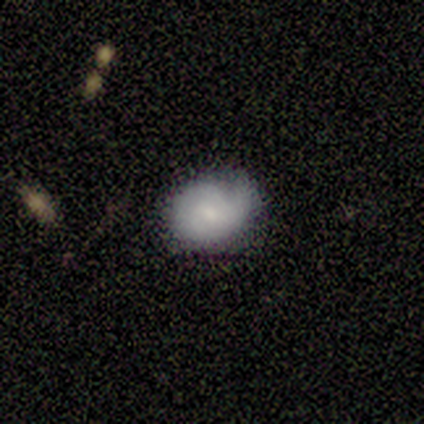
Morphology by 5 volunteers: Overall: featured or disk (60%; smooth 40%). Edge-on disk: no (100%). Bar: no (67%; weak 33%). Spiral arms: yes (67%; no 33%). Spiral arm count: 1 (100%). Spiral winding: medium (100%). Bulge size: moderate (67%; small 33%). Merging: none (80%).